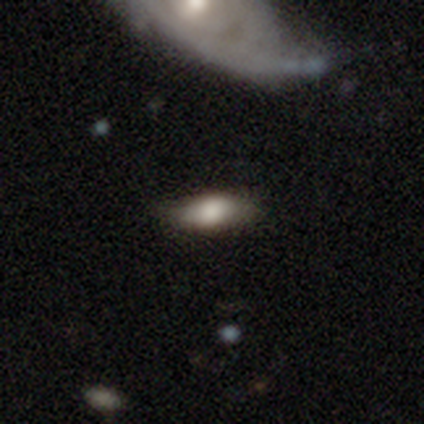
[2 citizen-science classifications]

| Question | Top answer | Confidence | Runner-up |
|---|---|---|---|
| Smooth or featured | smooth | 50% | tied: featured or disk (50%) |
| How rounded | in between | 100% | — |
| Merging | none | 50% | tied: minor disturbance (50%) |